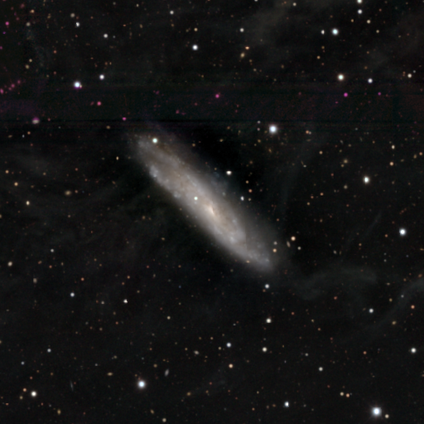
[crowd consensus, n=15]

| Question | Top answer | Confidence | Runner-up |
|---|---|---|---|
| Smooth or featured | featured or disk | 93% | smooth (7%) |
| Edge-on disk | no | 64% | yes (36%) |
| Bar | weak | 56% | no (44%) |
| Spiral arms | yes | 89% | no (11%) |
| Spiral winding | tight | 50% | medium (38%) |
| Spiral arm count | can't tell | 50% | 2 (25%) |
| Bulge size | small | 100% | — |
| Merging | none | 53% | minor disturbance (27%) |